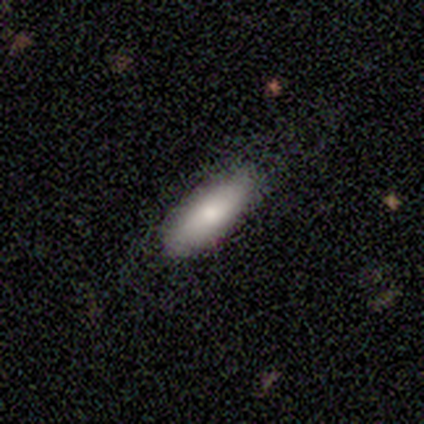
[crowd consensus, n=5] Smooth or featured? smooth (100%)
How rounded? in between (60%)
Merging? none (100%)